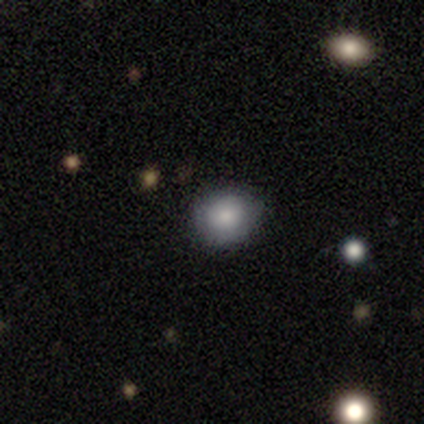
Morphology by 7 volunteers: Smooth or featured? 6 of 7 (86%) said smooth. How rounded? 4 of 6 (67%) said round. Merging? 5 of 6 (83%) said none.